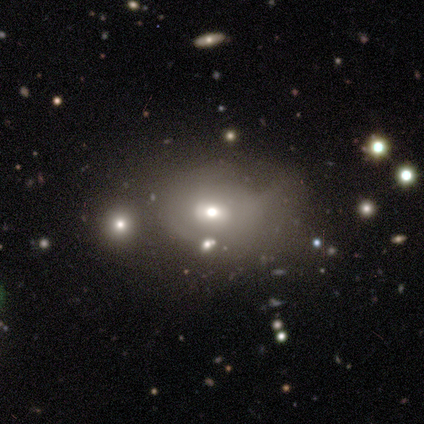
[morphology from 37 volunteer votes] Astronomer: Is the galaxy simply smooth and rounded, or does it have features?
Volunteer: smooth — 62%.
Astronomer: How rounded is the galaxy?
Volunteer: in between — 65%.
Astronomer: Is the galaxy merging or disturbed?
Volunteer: minor disturbance — 49% (runner-up: none, 29%).